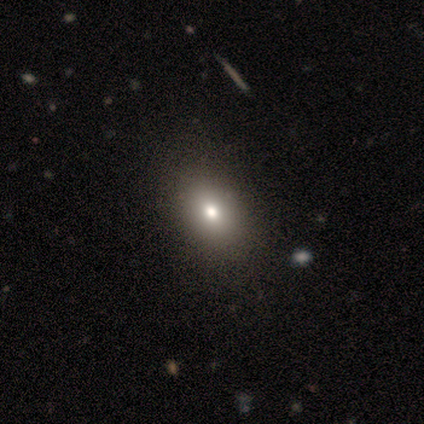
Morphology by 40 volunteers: smooth_or_featured: smooth (p=0.72) [alt: featured or disk p=0.23]
how_rounded: in between (p=0.76) [alt: round p=0.24]
merging: none (p=0.76)